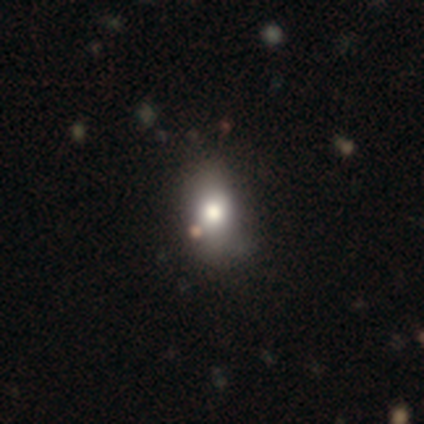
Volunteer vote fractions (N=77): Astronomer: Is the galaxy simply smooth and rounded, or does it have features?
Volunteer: smooth — 73%.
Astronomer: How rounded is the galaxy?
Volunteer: in between — 77%.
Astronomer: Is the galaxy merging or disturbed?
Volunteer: none — 41%.